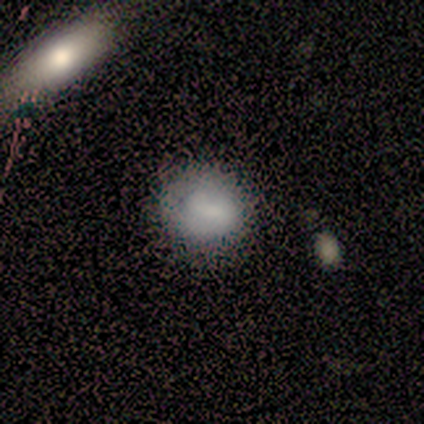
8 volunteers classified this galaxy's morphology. Smooth or featured?
  - smooth: 88% *
  - featured or disk: 12%
  - star or artifact: 0%
How rounded?
  - round: 57% *
  - in between: 43%
  - cigar-shaped: 0%
Merging?
  - none: 75% *
  - minor disturbance: 25%
  - major disturbance: 0%
  - merger: 0%